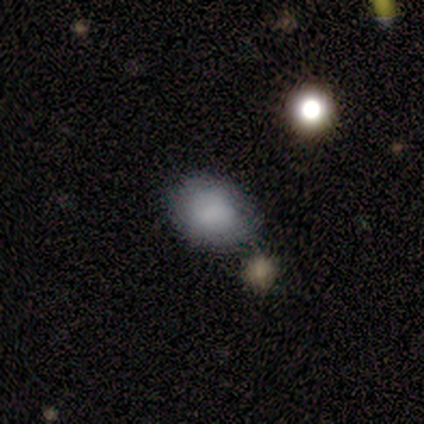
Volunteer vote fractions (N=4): Smooth or featured? smooth (75%)
How rounded? in between (67%)
Merging? none (100%)